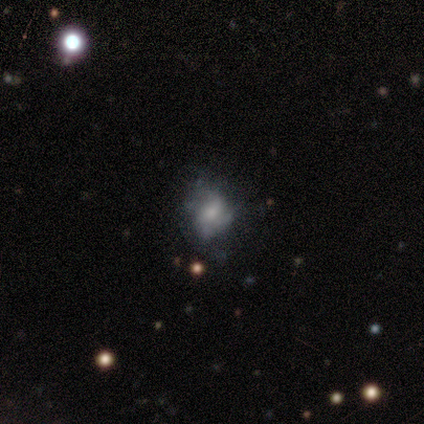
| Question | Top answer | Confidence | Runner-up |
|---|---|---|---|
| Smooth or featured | featured or disk | 75% | smooth (25%) |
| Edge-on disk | no | 100% | — |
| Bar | no | 50% | weak (33%) |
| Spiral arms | no | 67% | yes (33%) |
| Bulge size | small | 83% | moderate (17%) |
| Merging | minor disturbance | 50% | none (38%) |